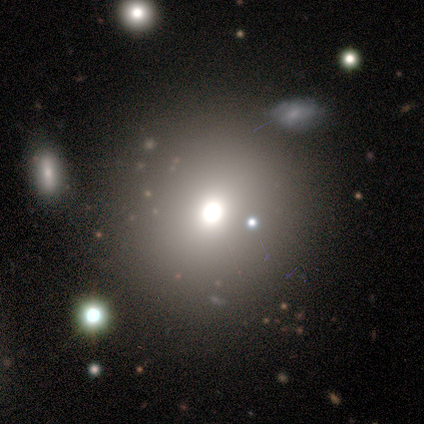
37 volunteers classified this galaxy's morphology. A smooth galaxy with no disk features (73%) that is round (81%). Merging: none (88%).